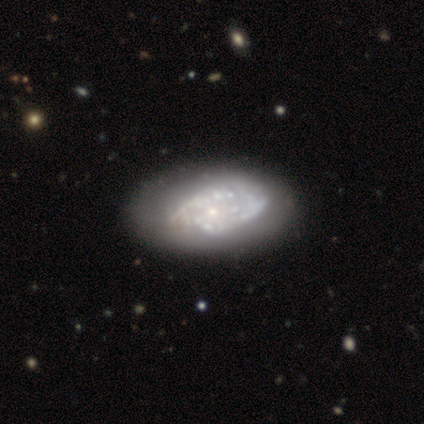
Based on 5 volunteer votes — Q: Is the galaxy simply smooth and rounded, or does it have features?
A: featured or disk — 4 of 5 (80%).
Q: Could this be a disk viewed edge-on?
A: no — 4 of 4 (100%).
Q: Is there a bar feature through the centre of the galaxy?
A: no — 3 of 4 (75%).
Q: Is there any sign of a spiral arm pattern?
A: yes — 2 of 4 (50%, tied with no).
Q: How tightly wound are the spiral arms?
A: tight — 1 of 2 (50%, tied with loose).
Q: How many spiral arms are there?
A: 4 — 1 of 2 (50%, tied with can't tell).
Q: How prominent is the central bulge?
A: small — 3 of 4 (75%).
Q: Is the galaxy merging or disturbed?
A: none — 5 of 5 (100%).